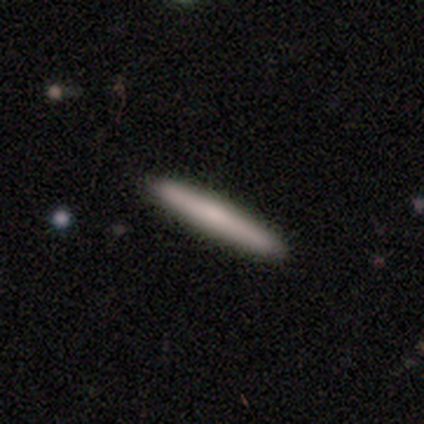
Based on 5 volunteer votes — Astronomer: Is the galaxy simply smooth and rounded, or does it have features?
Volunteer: smooth — 60% (runner-up: featured or disk, 40%).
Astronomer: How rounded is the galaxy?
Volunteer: cigar-shaped — 100%.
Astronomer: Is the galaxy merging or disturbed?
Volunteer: none — 100%.